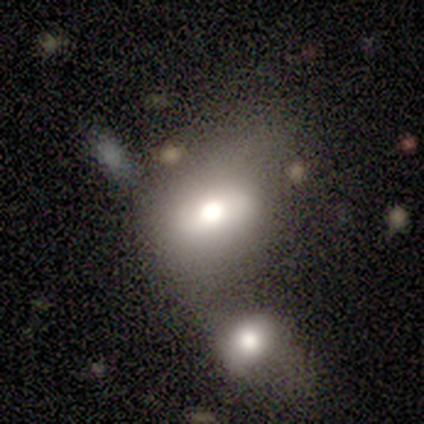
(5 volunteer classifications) Volunteers were most divided on "smooth or featured": star or artifact: 60%, smooth: 20%, featured or disk: 20%.